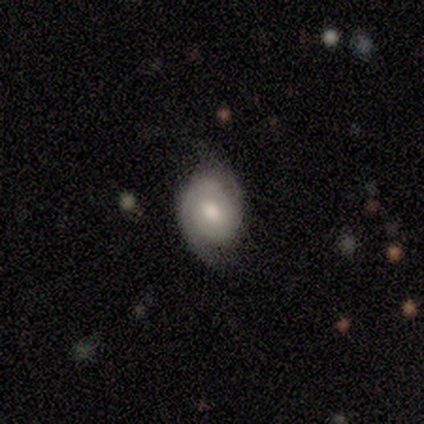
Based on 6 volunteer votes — This appears to be a featured or disk galaxy (83%) with a weak bar (60%), 2 (60%) tight (40%, tied with loose) spiral arms (100%) and a moderate central bulge (40%, tied with small). Merging: none (60%).